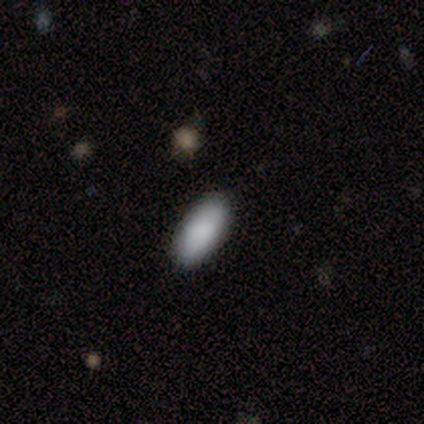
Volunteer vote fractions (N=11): A smooth galaxy with no disk features (73%) that is in between round and cigar-shaped (88%). Merging: none (67%).